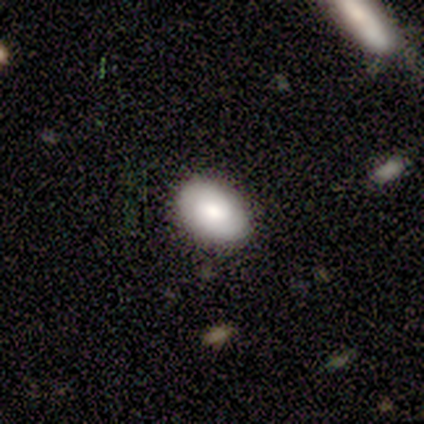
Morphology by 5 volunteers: Q: Smooth or featured?
A: featured or disk (60%); runner-up: smooth (40%)
Q: Edge-on disk?
A: no (100%)
Q: Bar?
A: no (67%); runner-up: strong (33%)
Q: Spiral arms?
A: yes (67%); runner-up: no (33%)
Q: Spiral winding?
A: tight (100%)
Q: Spiral arm count?
A: 1 (50%); tied with: can't tell (50%)
Q: Bulge size?
A: large (100%)
Q: Merging?
A: none (60%); runner-up: minor disturbance (40%)